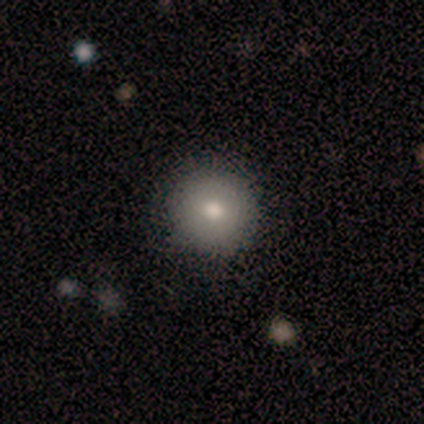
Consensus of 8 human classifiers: Smooth or featured? smooth (62%)
How rounded? round (100%)
Merging? none (83%)